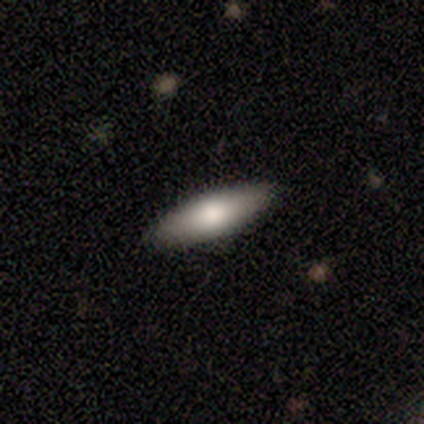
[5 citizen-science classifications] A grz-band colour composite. It shows a smooth galaxy with no disk features (100%) that is in between round and cigar-shaped (60%). Merging: none (100%).